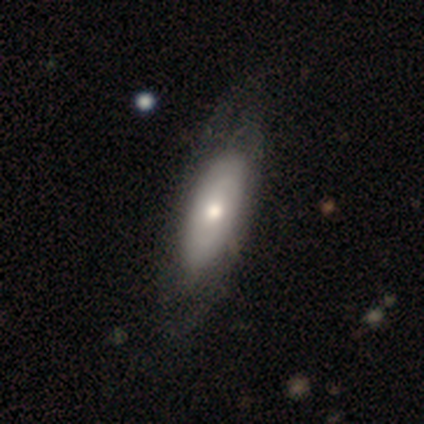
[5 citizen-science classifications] Overall: smooth (100%). How rounded: in between (80%). Merging: none (60%; minor disturbance 40%).